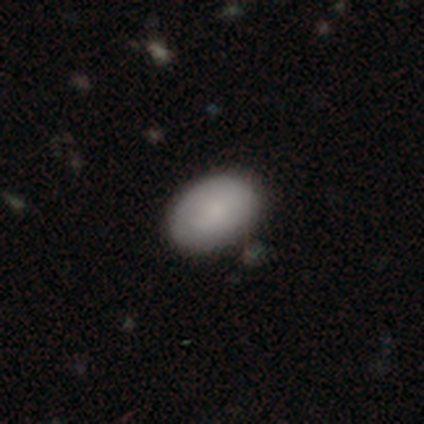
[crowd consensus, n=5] smooth-or-featured: smooth: 80% | star or artifact: 20% | featured or disk: 0%
  how-rounded: in between: 100% | round: 0% | cigar-shaped: 0%
  merging: none: 75% | minor disturbance: 25% | major disturbance: 0% | merger: 0%